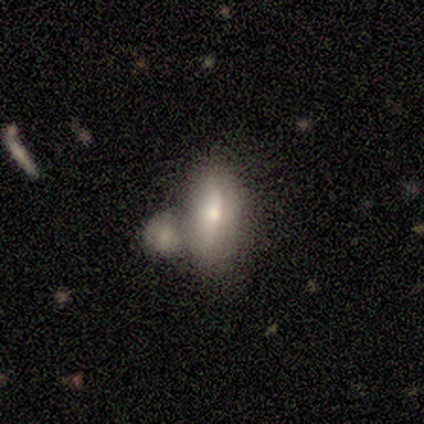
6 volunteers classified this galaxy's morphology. A smooth galaxy with no disk features (83%) that is in between round and cigar-shaped (80%). Merging: none (67%).